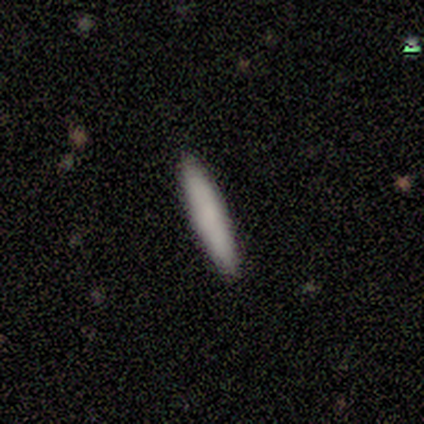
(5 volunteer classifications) smooth 80%, star or artifact 20%, featured or disk 0%. Down the decision tree: how rounded — cigar-shaped (100%); merging — none (100%).